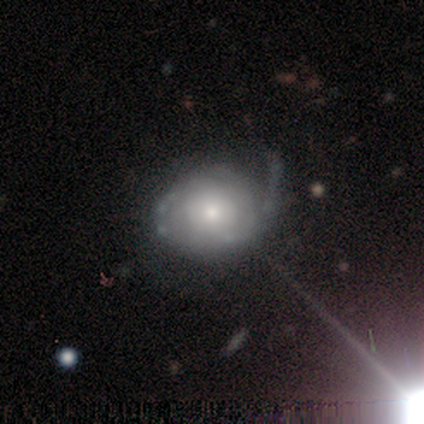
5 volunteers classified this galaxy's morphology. smooth-or-featured: smooth: 40% (tied) | featured or disk: 40% (tied) | star or artifact: 20%
  how-rounded: round: 100% | in between: 0% | cigar-shaped: 0%
  merging: major disturbance: 75% | minor disturbance: 25% | none: 0% | merger: 0%